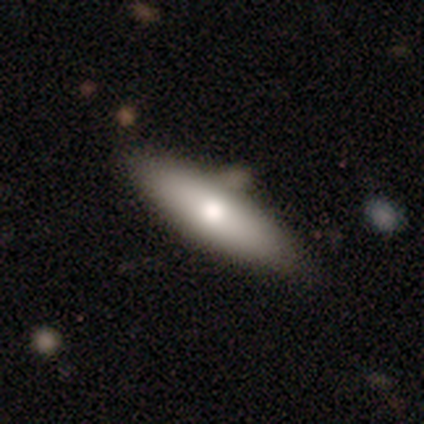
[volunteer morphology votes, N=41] A smooth galaxy with no disk features (63%) that is cigar-shaped (62%). Merging: none (81%).